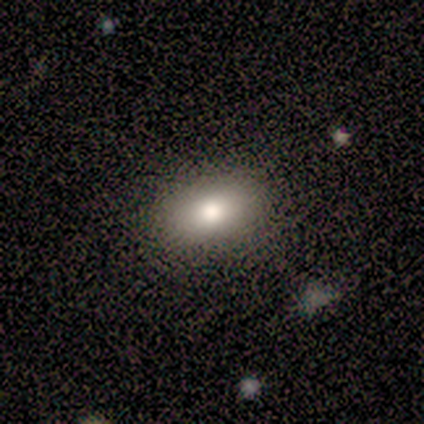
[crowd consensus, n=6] A smooth galaxy with no disk features (83%) that is in between round and cigar-shaped (80%). Merging: none (100%).